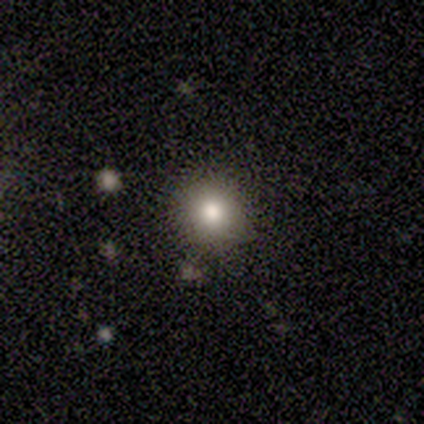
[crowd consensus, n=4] Overall: smooth (50%; featured or disk 25%). How rounded: round (100%). Merging: none (67%; minor disturbance 33%).